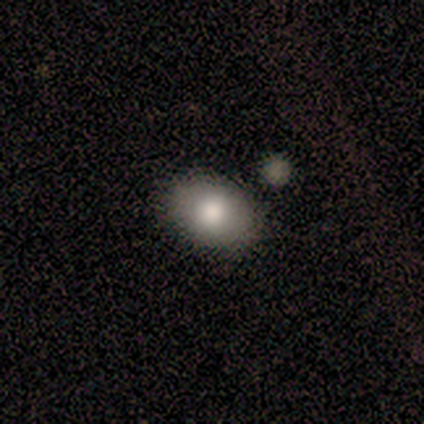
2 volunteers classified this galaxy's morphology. This is possibly a smooth galaxy (50%, tied with featured or disk). How rounded: clearly round (100%). Merging: possibly none (50%, tied with minor disturbance).